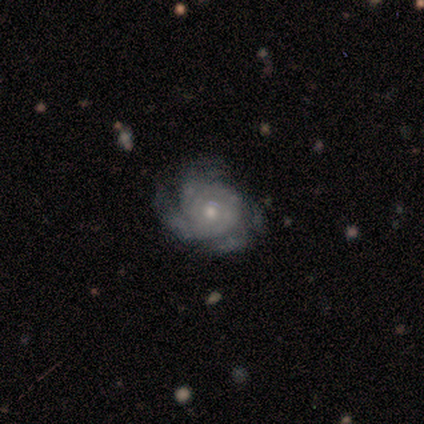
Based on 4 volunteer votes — This appears to be a featured or disk galaxy (100%) with no bar (100%), 4 (75%) tight (75%) spiral arms (100%) and a moderate central bulge (50%). Merging: none (100%).